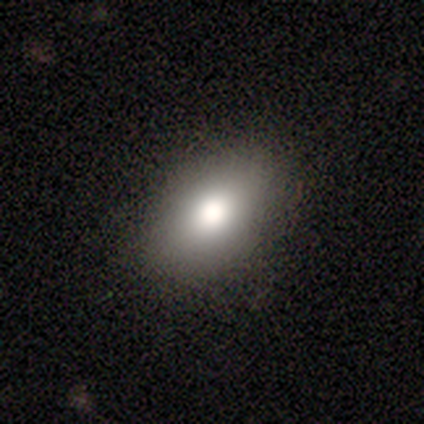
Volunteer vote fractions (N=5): smooth-or-featured: smooth: 100% | featured or disk: 0% | star or artifact: 0%
  how-rounded: in between: 80% | round: 20% | cigar-shaped: 0%
  merging: none: 80% | minor disturbance: 20% | major disturbance: 0% | merger: 0%